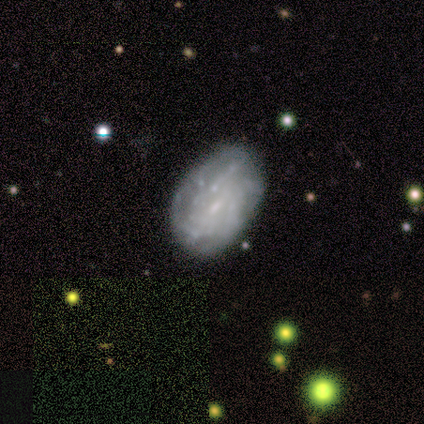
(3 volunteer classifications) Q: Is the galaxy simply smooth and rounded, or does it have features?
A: featured or disk — 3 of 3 (100%).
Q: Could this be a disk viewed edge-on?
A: no — 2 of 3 (67%).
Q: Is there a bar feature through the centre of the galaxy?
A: no — 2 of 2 (100%).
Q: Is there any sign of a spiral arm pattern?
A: yes — 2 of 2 (100%).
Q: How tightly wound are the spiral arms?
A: tight — 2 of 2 (100%).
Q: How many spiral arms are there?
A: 3 — 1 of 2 (50%, tied with can't tell).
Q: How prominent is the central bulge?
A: small — 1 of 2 (50%, tied with none).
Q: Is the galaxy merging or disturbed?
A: minor disturbance — 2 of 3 (67%).